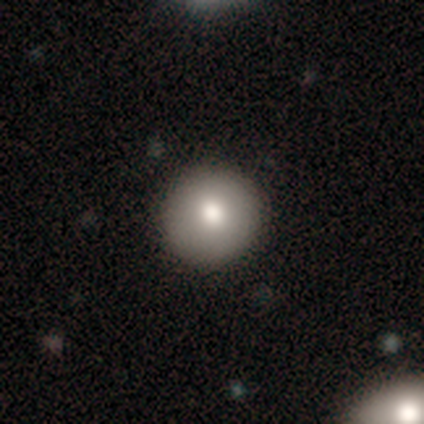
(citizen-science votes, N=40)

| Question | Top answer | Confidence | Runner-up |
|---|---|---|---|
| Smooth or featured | smooth | 82% | featured or disk (10%) |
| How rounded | round | 97% | in between (3%) |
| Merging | none | 89% | minor disturbance (8%) |